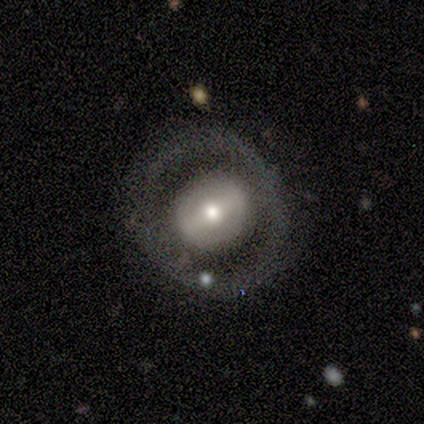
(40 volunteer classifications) Q: Smooth or featured?
A: featured or disk (70%); runner-up: smooth (25%)
Q: Edge-on disk?
A: no (96%); runner-up: yes (4%)
Q: Bar?
A: strong (56%); runner-up: weak (26%)
Q: Spiral arms?
A: no (74%); runner-up: yes (26%)
Q: Bulge size?
A: moderate (59%); runner-up: small (33%)
Q: Merging?
A: none (82%); runner-up: minor disturbance (8%)